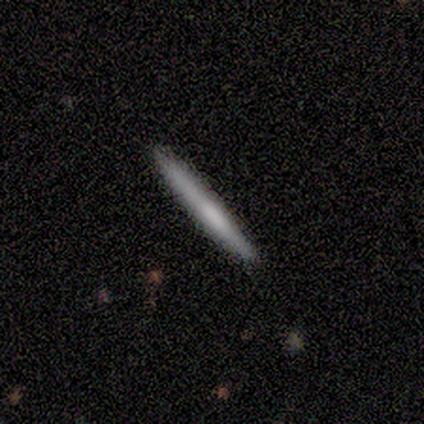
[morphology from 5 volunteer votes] Smooth or featured? featured or disk (60%)
Edge-on disk? yes (100%)
Edge-on bulge? none (67%)
Merging? none (80%)